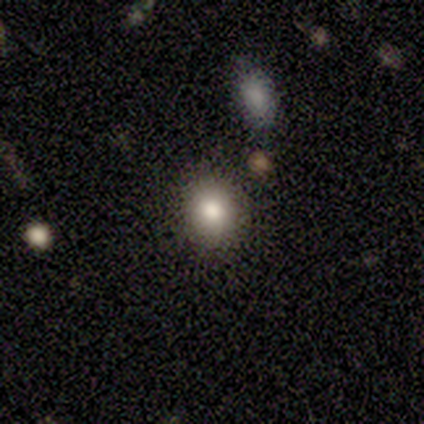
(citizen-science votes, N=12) Smooth or featured? smooth (75%)
How rounded? round (78%)
Merging? none (78%)